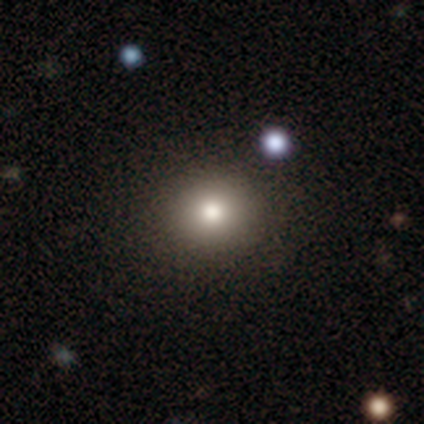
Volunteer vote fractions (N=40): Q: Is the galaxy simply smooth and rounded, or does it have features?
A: smooth — 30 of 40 (75%).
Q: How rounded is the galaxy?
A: round — 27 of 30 (90%).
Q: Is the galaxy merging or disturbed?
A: none — 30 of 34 (88%).